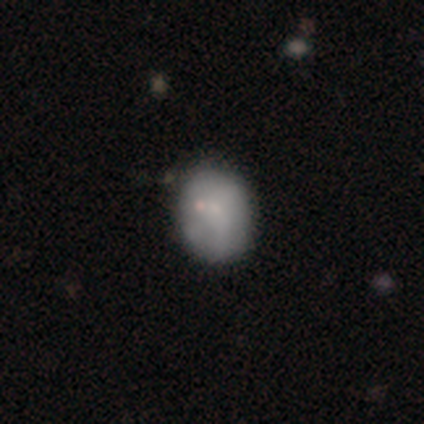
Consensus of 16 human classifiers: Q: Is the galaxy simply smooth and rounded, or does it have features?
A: smooth — 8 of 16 (50%).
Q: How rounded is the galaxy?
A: in between — 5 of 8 (62%).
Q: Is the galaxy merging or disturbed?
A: none — 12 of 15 (80%).